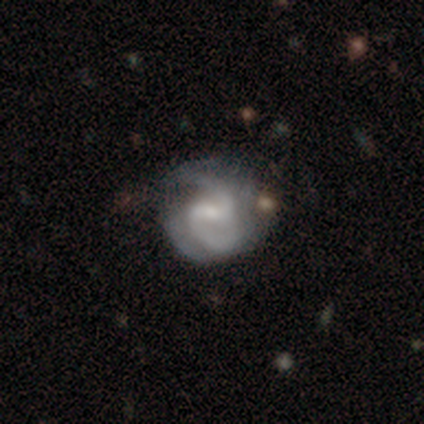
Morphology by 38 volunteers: smooth-or-featured: featured or disk: 82% | smooth: 16% | star or artifact: 3%
  disk-edge-on: no: 100% | yes: 0%
    bar: weak: 61% | strong: 26% | no: 13%
    has-spiral-arms: yes: 97% | no: 3%
      spiral-winding: medium: 57% | loose: 27% | tight: 17%
      spiral-arm-count: 2: 80% | 3: 10% | can't tell: 10% | 1: 0% | 4: 0% | more than 4: 0%
    bulge-size: small: 48% | moderate: 26% | none: 23% | large: 3% | dominant: 0%
  merging: none: 59% | minor disturbance: 24% | major disturbance: 14% | merger: 3%